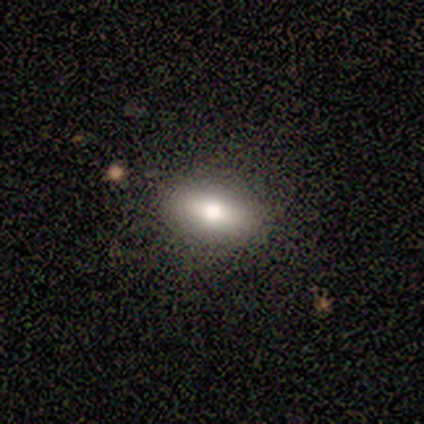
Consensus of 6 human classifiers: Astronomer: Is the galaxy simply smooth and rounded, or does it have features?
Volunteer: smooth — 50% (runner-up: featured or disk, 33%).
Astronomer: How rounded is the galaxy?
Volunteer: in between — 100%.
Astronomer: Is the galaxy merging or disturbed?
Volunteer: none — 100%.